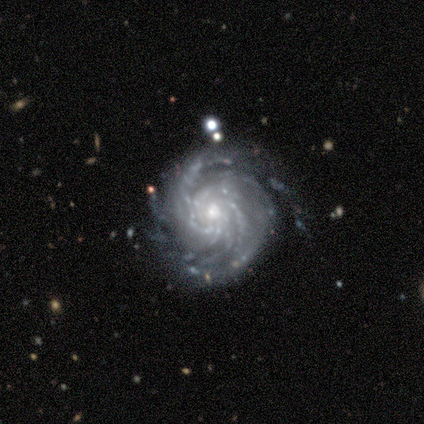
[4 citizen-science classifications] A featured or disk galaxy (75%) with no bar (67%), more than 4 (67%) tight (100%) spiral arms (100%) and a small central bulge (67%).

Vote fractions:
- Smooth or featured? featured or disk: 75% / star or artifact: 25% / smooth: 0%
- Edge-on disk? no: 100% / yes: 0%
- Bar? no: 67% / strong: 33% / weak: 0%
- Spiral arms? yes: 100% / no: 0%
- Spiral winding? tight: 100% / medium: 0% / loose: 0%
- Spiral arm count? more than 4: 67% / can't tell: 33% / 1: 0% / 2: 0% / 3: 0% / 4: 0%
- Bulge size? small: 67% / moderate: 33% / dominant: 0% / large: 0% / none: 0%
- Merging? minor disturbance: 67% / merger: 33% / none: 0% / major disturbance: 0%